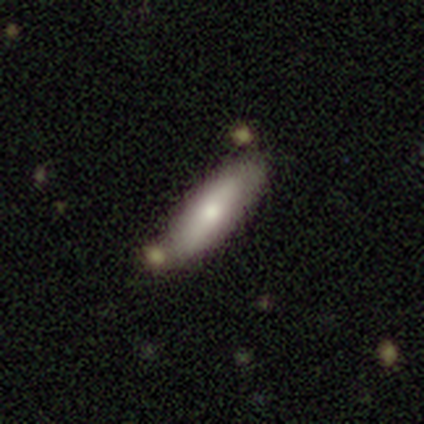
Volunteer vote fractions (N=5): A smooth galaxy with no disk features (100%) that is in between round and cigar-shaped (60%). Merging: none (80%).